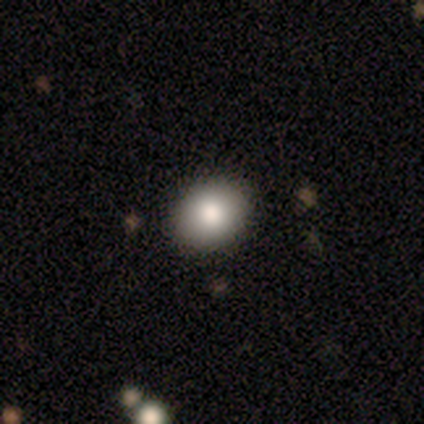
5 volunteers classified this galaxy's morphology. Smooth or featured?
  - smooth: 80% *
  - star or artifact: 20%
  - featured or disk: 0%
How rounded?
  - in between: 75% *
  - round: 25%
  - cigar-shaped: 0%
Merging?
  - none: 50% * (tied)
  - minor disturbance: 50% * (tied)
  - major disturbance: 0%
  - merger: 0%